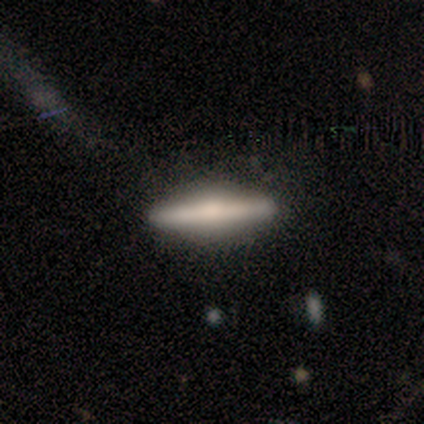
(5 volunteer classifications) featured or disk 80%, smooth 20%, star or artifact 0%. Down the decision tree: edge-on disk — yes (100%); edge-on bulge — rounded (75%); merging — none (80%).